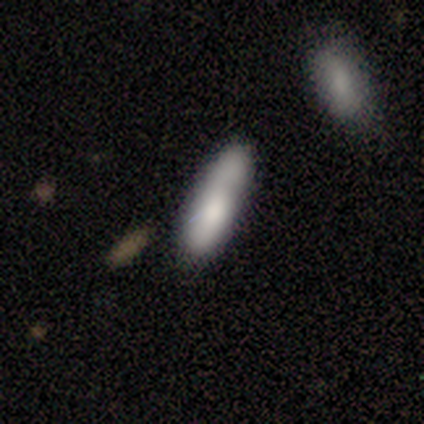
Smooth or featured? smooth (100%)
How rounded? cigar-shaped (60%)
Merging? none (40%, tied with minor disturbance)